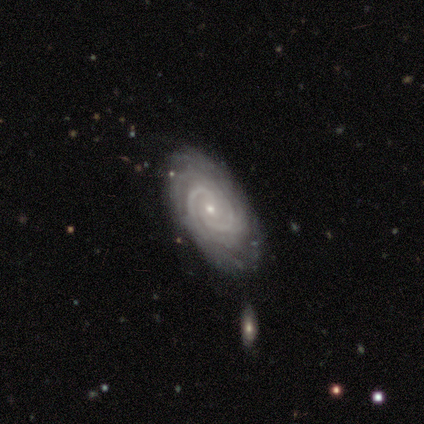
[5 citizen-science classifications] Q: Smooth or featured?
A: featured or disk (100%)
Q: Edge-on disk?
A: no (100%)
Q: Bar?
A: no (60%); runner-up: weak (40%)
Q: Spiral arms?
A: yes (100%)
Q: Spiral winding?
A: tight (80%); runner-up: medium (20%)
Q: Spiral arm count?
A: 2 (40%); tied with: can't tell (40%)
Q: Bulge size?
A: moderate (60%); runner-up: small (40%)
Q: Merging?
A: none (80%); runner-up: minor disturbance (20%)